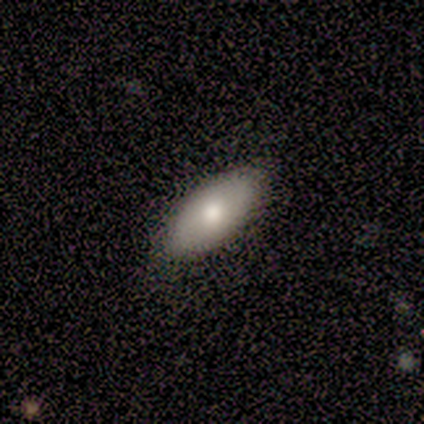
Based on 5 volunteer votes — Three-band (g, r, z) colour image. It shows a smooth galaxy with no disk features (80%) that is in between round and cigar-shaped (75%). Merging: none (100%).